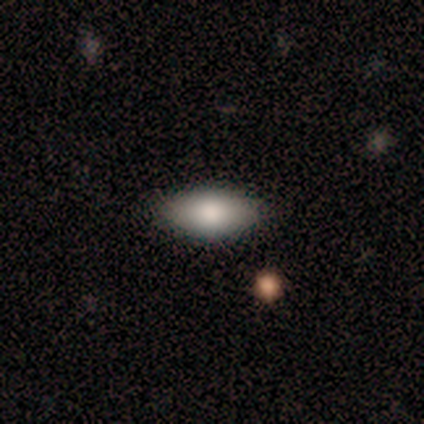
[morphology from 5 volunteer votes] Smooth or featured? smooth (100%)
How rounded? in between (100%)
Merging? none (100%)